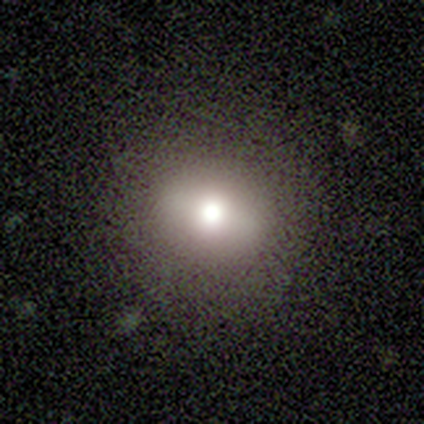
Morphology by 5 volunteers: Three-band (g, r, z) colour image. It shows a smooth galaxy with no disk features (60%) that is round (100%). Merging: none (100%).